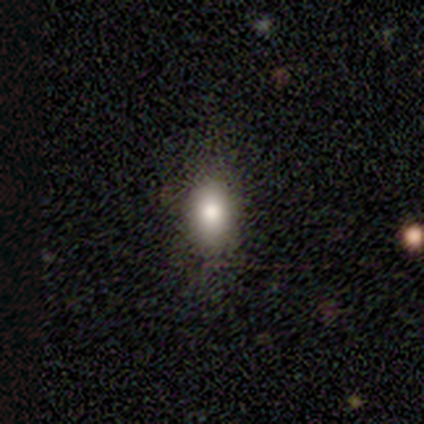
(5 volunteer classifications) This is clearly a smooth galaxy (100%). How rounded: likely in between (60%). Merging: clearly none (100%).